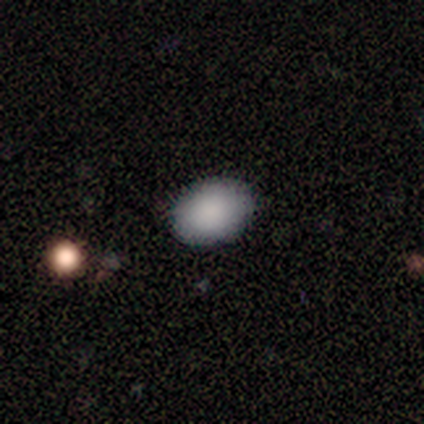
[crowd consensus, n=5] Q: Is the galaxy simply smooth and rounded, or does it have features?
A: smooth — 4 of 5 (80%).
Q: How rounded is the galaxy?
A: in between — 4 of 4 (100%).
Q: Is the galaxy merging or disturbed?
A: none — 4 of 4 (100%).